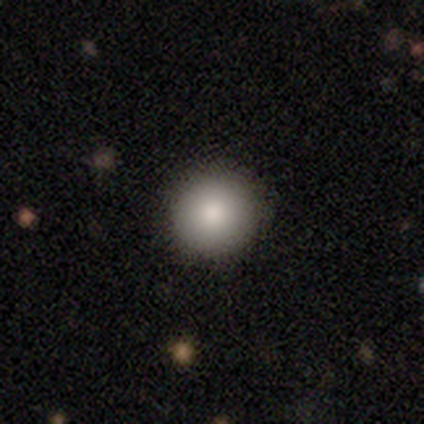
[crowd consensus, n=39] This is clearly a smooth galaxy (85%). How rounded: clearly round (97%). Merging: clearly none (91%).